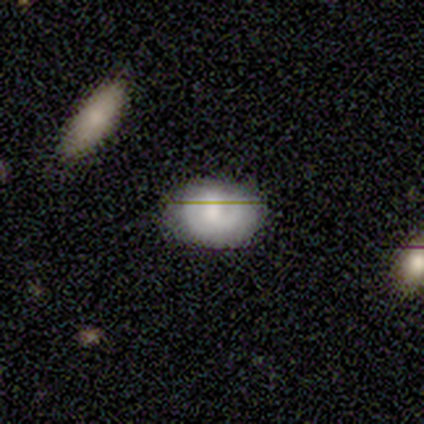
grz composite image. It shows a featured or disk galaxy (57%) with a weak bar (50%, tied with no), 1 (33%, tied with 2 and can't tell) tight (67%) spiral arms (75%) and a moderate central bulge (50%). Merging: none (100%).